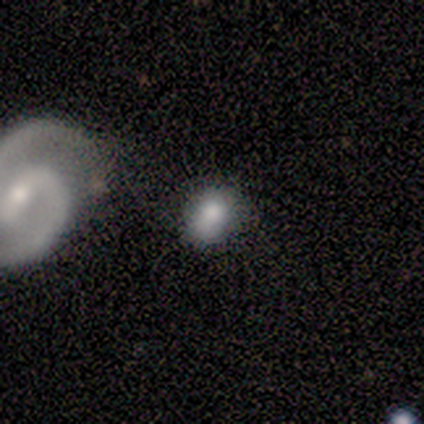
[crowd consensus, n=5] This is clearly a smooth galaxy (80%). How rounded: likely in between (75%). Merging: likely none (60%).